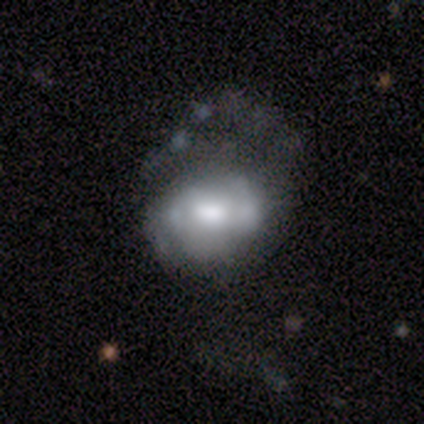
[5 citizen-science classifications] featured or disk 100%, smooth 0%, star or artifact 0%. Down the decision tree: edge-on disk — no (80%); bar — weak (50%, tied with no); spiral arms — no (100%); bulge size — moderate (75%); merging — major disturbance (60%).